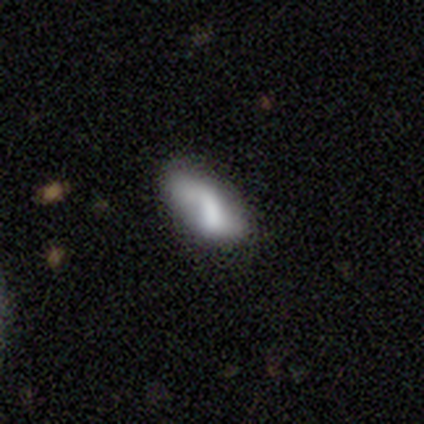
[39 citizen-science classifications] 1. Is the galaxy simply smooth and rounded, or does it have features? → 62% smooth, 33% featured or disk, 5% star or artifact.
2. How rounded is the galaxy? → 83% in between, 12% cigar-shaped, 4% round.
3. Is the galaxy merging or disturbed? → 57% none, 27% minor disturbance, 11% major disturbance, 5% merger.